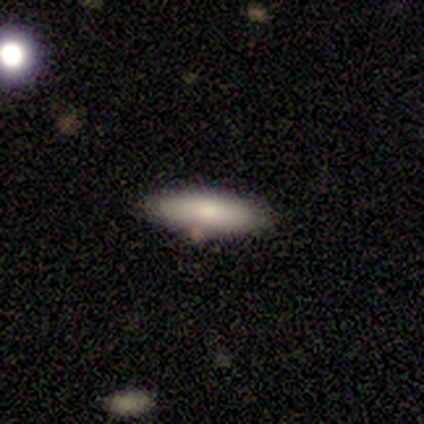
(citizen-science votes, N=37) Smooth or featured? 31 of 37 (84%) said smooth. How rounded? 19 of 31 (61%) said in between. Merging? 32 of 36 (89%) said none.